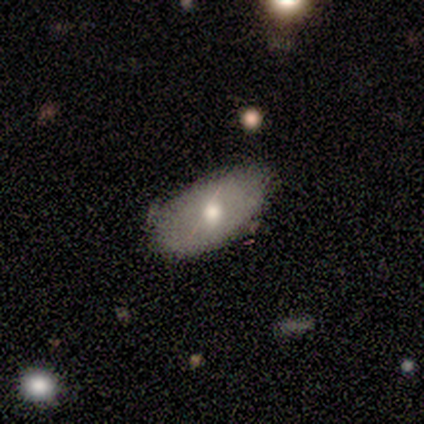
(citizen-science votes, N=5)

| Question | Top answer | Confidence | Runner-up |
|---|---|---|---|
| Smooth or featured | smooth | 60% | featured or disk (40%) |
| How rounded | in between | 100% | — |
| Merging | none | 100% | — |